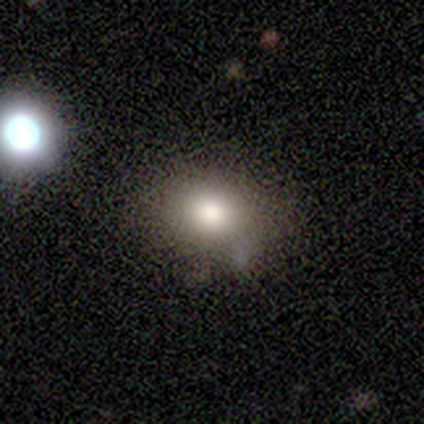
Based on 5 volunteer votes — Volunteers were most divided on "smooth or featured" (2-way tie): smooth: 40%, featured or disk: 40%, star or artifact: 20%. More confident: how rounded — in between (100%); merging — none (50%).